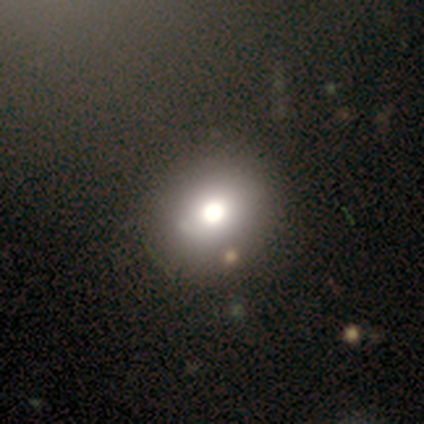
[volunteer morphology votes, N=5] Smooth or featured?
  - smooth: 40% * (tied)
  - featured or disk: 40% * (tied)
  - star or artifact: 20%
How rounded?
  - round: 50% * (tied)
  - in between: 50% * (tied)
  - cigar-shaped: 0%
Merging?
  - none: 100% *
  - minor disturbance: 0%
  - major disturbance: 0%
  - merger: 0%